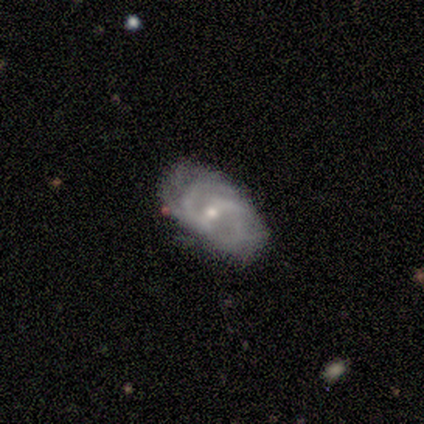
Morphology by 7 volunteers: smooth-or-featured: featured or disk: 86% | smooth: 14% | star or artifact: 0%
  disk-edge-on: no: 100% | yes: 0%
    bar: weak: 67% | no: 33% | strong: 0%
    has-spiral-arms: yes: 100% | no: 0%
      spiral-winding: medium: 67% | loose: 33% | tight: 0%
      spiral-arm-count: 2: 33% (tied) | 3: 33% (tied) | can't tell: 33% (tied) | 1: 0% | 4: 0% | more than 4: 0%
    bulge-size: moderate: 50% (tied) | small: 50% (tied) | dominant: 0% | large: 0% | none: 0%
  merging: none: 57% | minor disturbance: 29% | merger: 14% | major disturbance: 0%